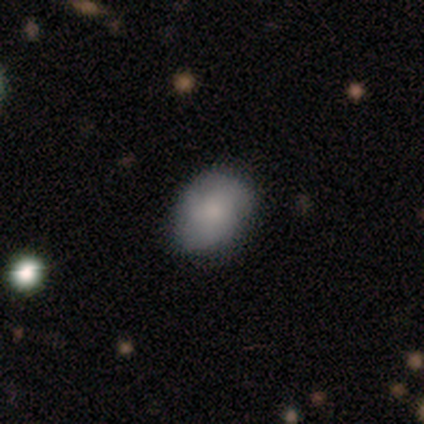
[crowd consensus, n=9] Q: Smooth or featured?
A: smooth (89%); runner-up: featured or disk (11%)
Q: How rounded?
A: in between (75%); runner-up: round (25%)
Q: Merging?
A: none (89%); runner-up: major disturbance (11%)